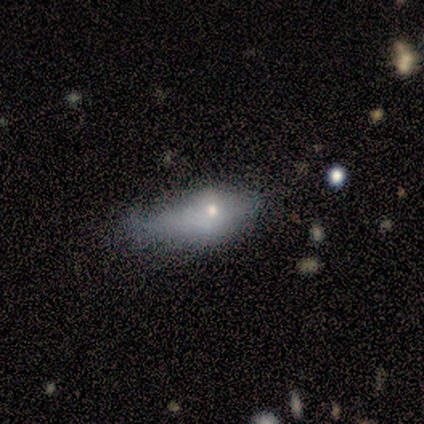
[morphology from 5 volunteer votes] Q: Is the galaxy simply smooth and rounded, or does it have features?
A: smooth — 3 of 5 (60%).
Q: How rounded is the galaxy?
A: in between — 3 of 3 (100%).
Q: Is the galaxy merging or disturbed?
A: none — 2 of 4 (50%, tied with major disturbance).